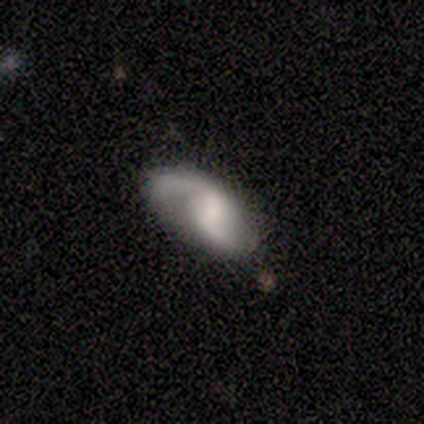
Smooth or featured? 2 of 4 (50%, tied with featured or disk) said smooth. How rounded? 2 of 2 (100%) said in between. Merging? 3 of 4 (75%) said none.